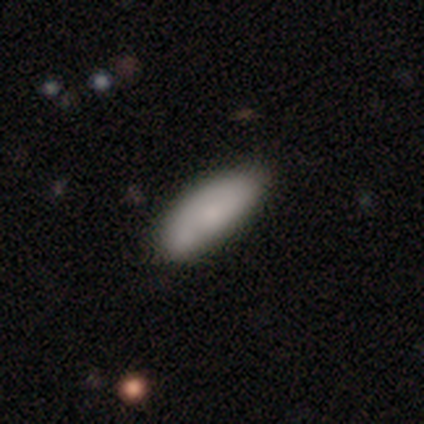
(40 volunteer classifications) Volunteers were most divided on "merging": none: 46%, merger: 15%, minor disturbance: 10%, major disturbance: 5%. More confident: how rounded — in between (80%); smooth or featured — smooth (75%).